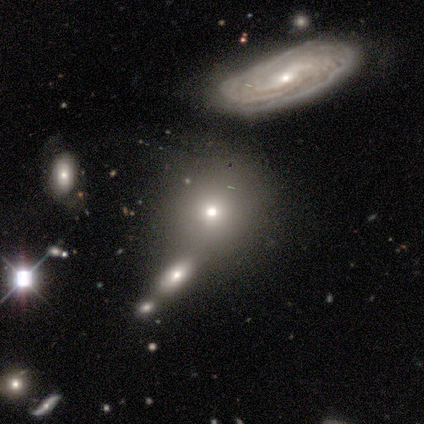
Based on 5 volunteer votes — A smooth galaxy with no disk features (60%) that is round (100%). Merging: none (75%).